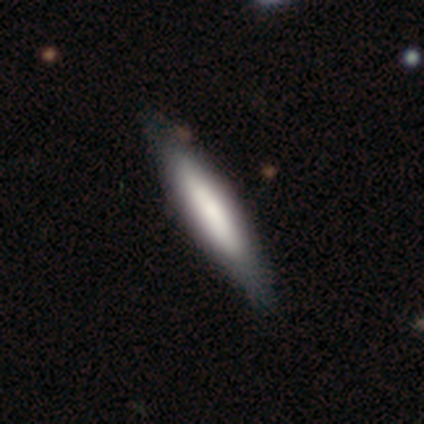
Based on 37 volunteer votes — Overall: smooth (68%; featured or disk 32%). How rounded: cigar-shaped (76%). Merging: none (49%).